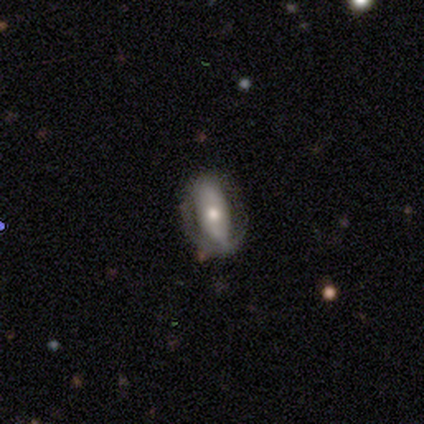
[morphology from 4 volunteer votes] A smooth galaxy with no disk features (100%) that is in between round and cigar-shaped (100%).

Vote fractions:
- Smooth or featured? smooth: 100% / featured or disk: 0% / star or artifact: 0%
- How rounded? in between: 100% / round: 0% / cigar-shaped: 0%
- Merging? none: 50% (tied) / minor disturbance: 50% (tied) / major disturbance: 0% / merger: 0%